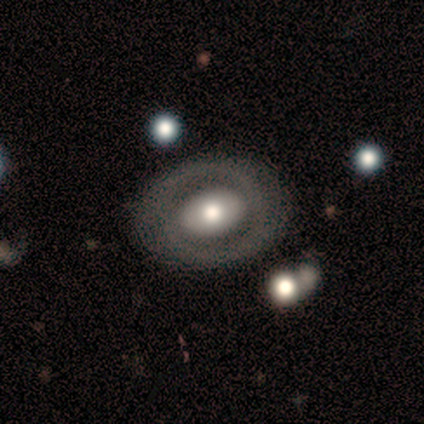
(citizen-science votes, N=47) featured or disk 68%, smooth 30%, star or artifact 2%. Down the decision tree: edge-on disk — no (97%); bar — no (61%); spiral arms — no (61%); bulge size — moderate (52%); merging — none (80%).